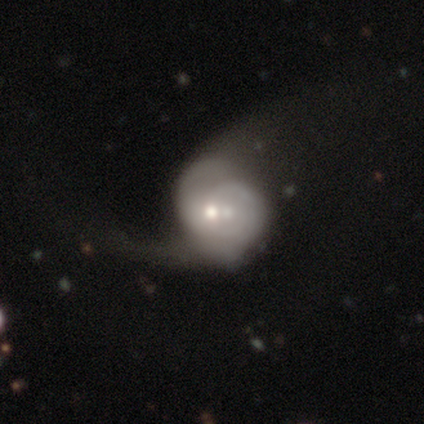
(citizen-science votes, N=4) Volunteers were most divided on "bulge size" (2-way tie): moderate: 50%, small: 50%, dominant: 0%, large: 0%, none: 0%. More confident: smooth or featured — featured or disk (100%); edge-on disk — no (100%); bar — no (75%); spiral arms — yes (75%); merging — merger (75%); spiral winding — medium (67%); spiral arm count — can't tell (67%).